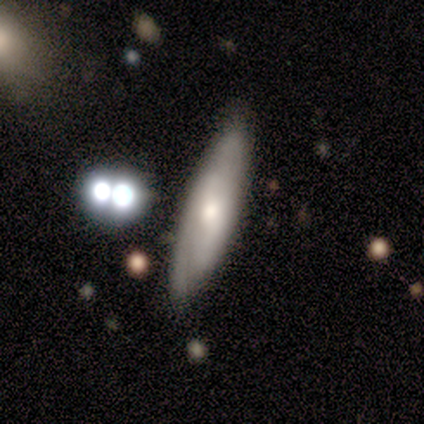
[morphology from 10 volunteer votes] Smooth or featured: featured or disk — 60% (smooth — 30%)
Edge-on disk: no — 83% (yes — 17%)
Bar: no — 100%
Spiral arms: yes — 80% (no — 20%)
Spiral winding: tight — 75% (loose — 25%)
Spiral arm count: 2 — 75% (can't tell — 25%)
Bulge size: moderate — 80% (small — 20%)
Merging: none — 89% (minor disturbance — 11%)